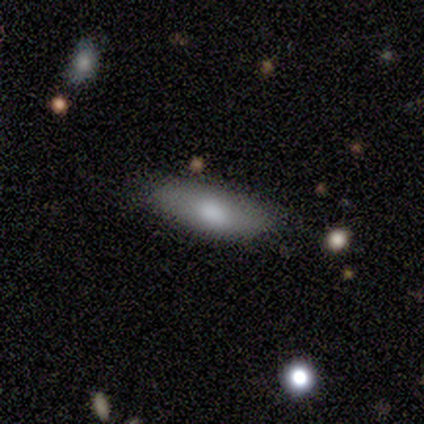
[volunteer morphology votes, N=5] Smooth or featured? 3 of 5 (60%) said smooth. How rounded? 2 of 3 (67%) said cigar-shaped. Merging? 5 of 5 (100%) said none.